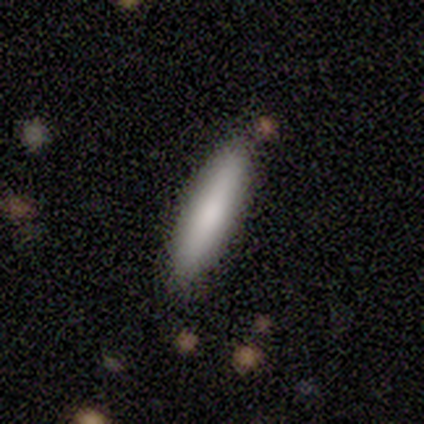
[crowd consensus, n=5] Smooth or featured? smooth (100%)
How rounded? cigar-shaped (80%)
Merging? none (80%)